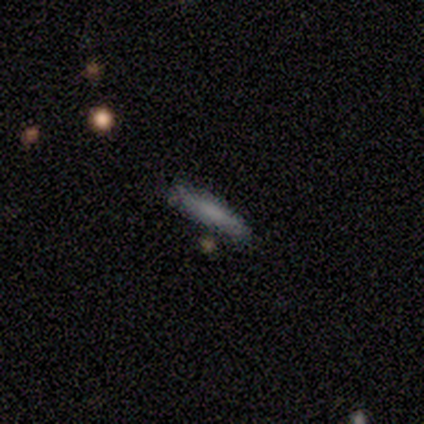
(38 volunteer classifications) Smooth or featured? 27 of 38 (71%) said smooth. How rounded? 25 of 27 (93%) said cigar-shaped. Merging? 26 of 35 (74%) said none.